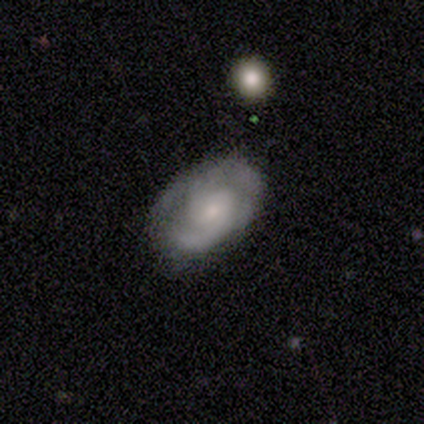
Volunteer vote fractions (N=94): A featured or disk galaxy (80%) with no bar (70%), 2 (77%) tight (61%) spiral arms (96%) and a moderate central bulge (50%). Merging: none (64%).